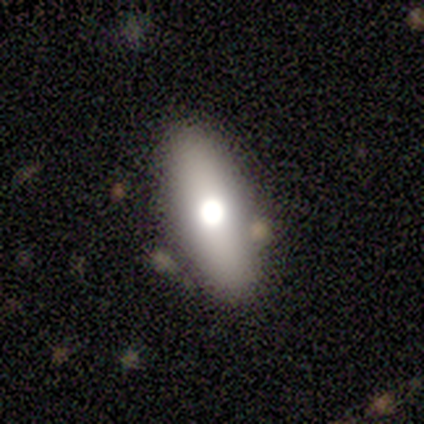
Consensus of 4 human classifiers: smooth-or-featured: star or artifact: 50% | smooth: 25% | featured or disk: 25%